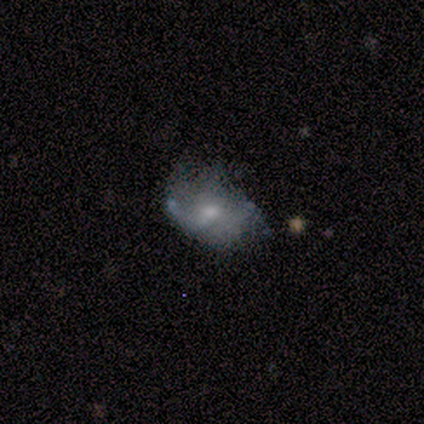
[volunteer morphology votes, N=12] Smooth or featured? 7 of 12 (58%) said featured or disk. Edge-on disk? 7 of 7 (100%) said no. Bar? 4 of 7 (57%) said no. Spiral arms? 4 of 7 (57%) said yes. Spiral winding? 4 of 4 (100%) said loose. Spiral arm count? 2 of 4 (50%) said 1. Bulge size? 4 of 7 (57%) said moderate. Merging? 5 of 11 (45%) said major disturbance.